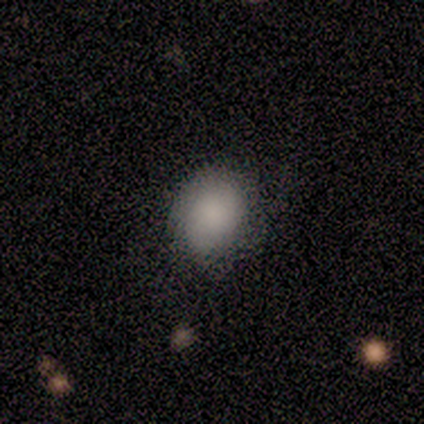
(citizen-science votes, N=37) Morphology: type=smooth (92%); roundness=round (56%); merging=none (38%).